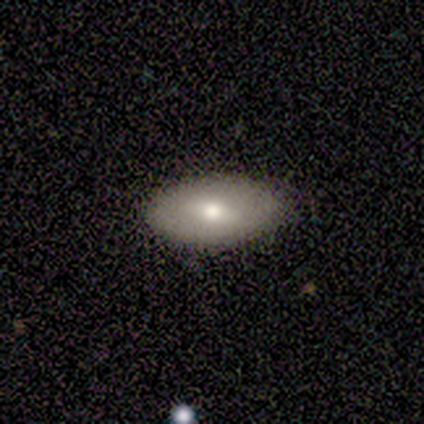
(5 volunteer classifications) Q: Smooth or featured?
A: smooth (40%); tied with: featured or disk (40%)
Q: How rounded?
A: in between (100%)
Q: Merging?
A: none (100%)